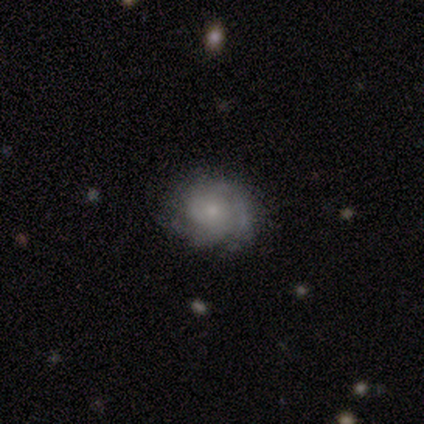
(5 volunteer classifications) This appears to be a featured or disk galaxy (80%) with no bar (100%), 3 (67%) tight (100%) spiral arms (75%) and a moderate central bulge (75%). Merging: none (80%).